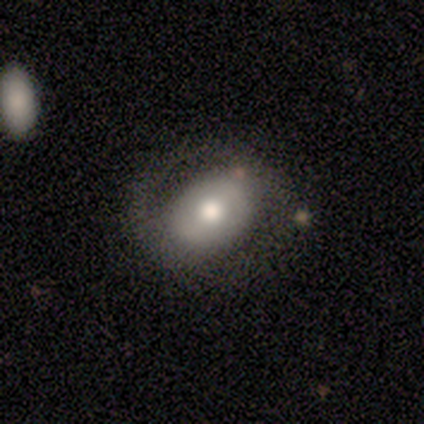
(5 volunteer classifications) Volunteers were most divided on "smooth or featured": featured or disk: 60%, smooth: 40%, star or artifact: 0%. More confident: edge-on disk — no (100%); merging — none (80%); bar — weak (67%); spiral arms — no (67%); bulge size — large (67%).